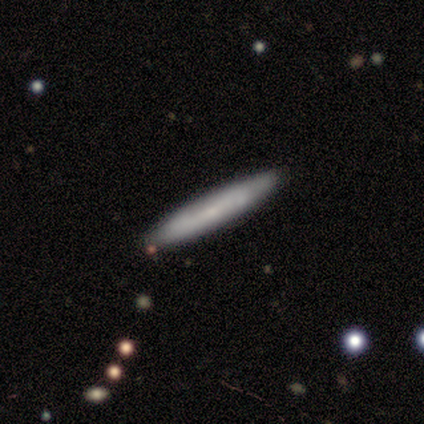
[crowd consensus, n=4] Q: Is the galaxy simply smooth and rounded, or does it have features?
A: smooth — 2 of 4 (50%, tied with featured or disk).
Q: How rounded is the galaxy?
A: cigar-shaped — 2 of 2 (100%).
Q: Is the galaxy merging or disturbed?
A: none — 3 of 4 (75%).